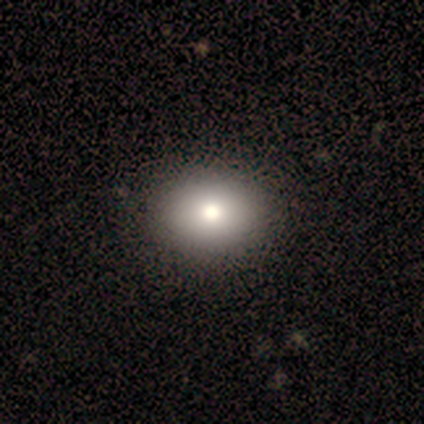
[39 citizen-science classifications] A smooth galaxy with no disk features (77%) that is in between round and cigar-shaped (53%). Merging: none (71%).